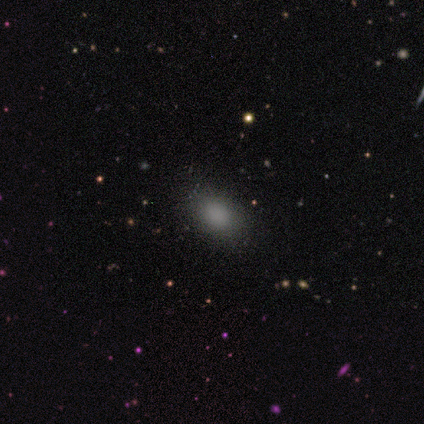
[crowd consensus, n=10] This is clearly a smooth galaxy (80%). How rounded: clearly in between (88%). Merging: likely none (75%).